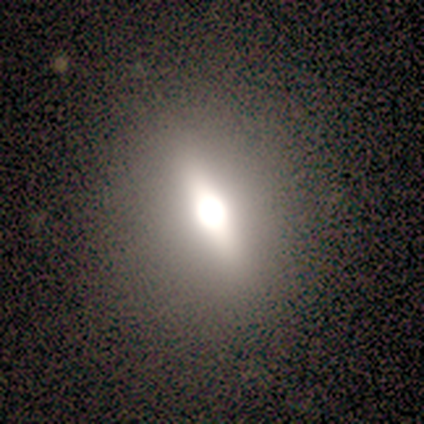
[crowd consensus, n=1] This appears to be a smooth galaxy with no disk features (100%) that is round (100%). Merging: none (100%).